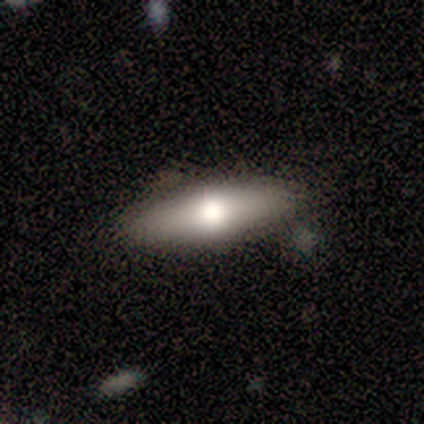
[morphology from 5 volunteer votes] This appears to be a smooth galaxy with no disk features (80%) that is in between round and cigar-shaped (75%). Merging: none (80%).